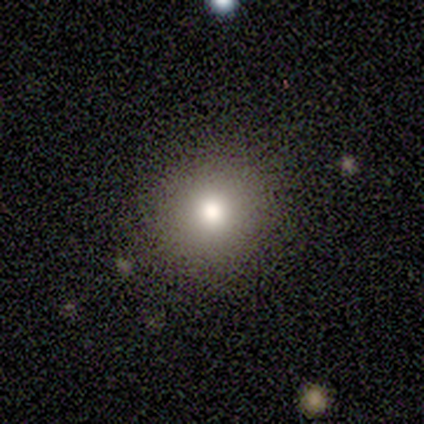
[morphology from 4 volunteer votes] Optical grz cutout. It shows a smooth galaxy with no disk features (75%) that is round (100%). Merging: none (100%).